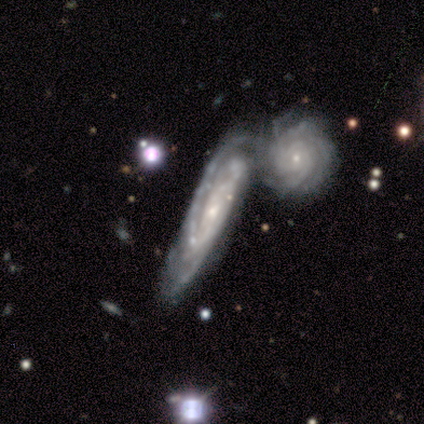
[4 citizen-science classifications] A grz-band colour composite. It shows a featured or disk galaxy (100%) viewed edge-on (50%, tied with no) with no central bulge (50%, tied with rounded). Merging: none (25%, tied with minor disturbance, major disturbance and merger).